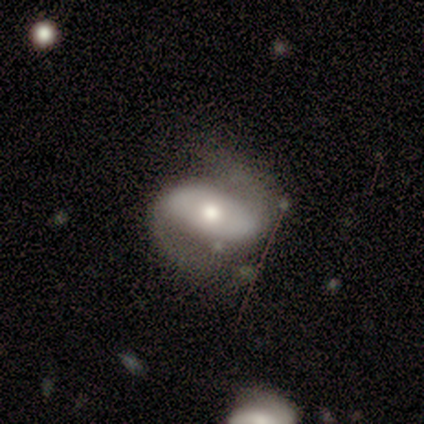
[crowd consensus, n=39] Q: Smooth or featured?
A: featured or disk (90%); runner-up: smooth (5%)
Q: Edge-on disk?
A: no (97%); runner-up: yes (3%)
Q: Bar?
A: no (56%); runner-up: strong (32%)
Q: Spiral arms?
A: yes (94%); runner-up: no (6%)
Q: Spiral winding?
A: medium (50%); runner-up: loose (34%)
Q: Spiral arm count?
A: 2 (100%)
Q: Bulge size?
A: moderate (62%); runner-up: large (26%)
Q: Merging?
A: none (57%); runner-up: minor disturbance (27%)